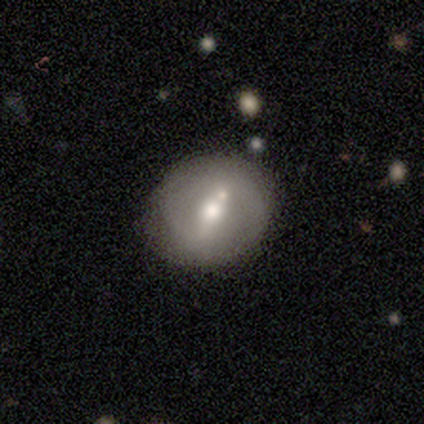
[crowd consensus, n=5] Morphology: type=smooth (40%, tied with featured or disk); roundness=round (100%); merging=none (75%).